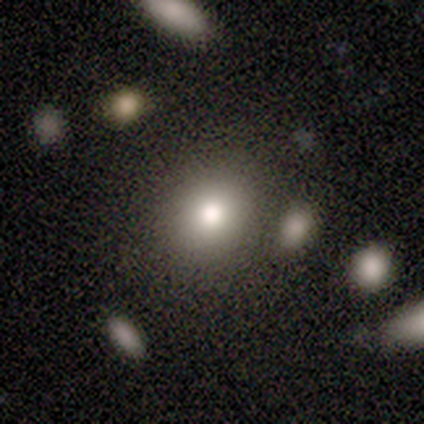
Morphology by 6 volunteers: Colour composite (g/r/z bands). It shows a smooth galaxy with no disk features (83%) that is round (100%). Merging: none (67%).